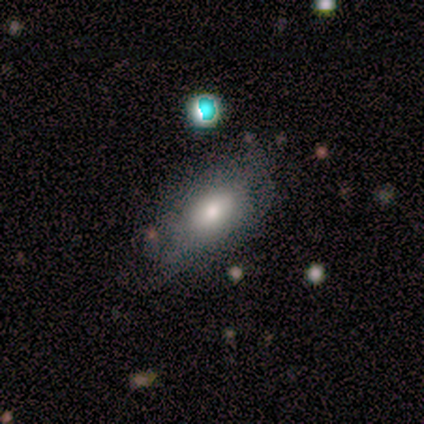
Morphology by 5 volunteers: Q: Smooth or featured?
A: smooth (80%); runner-up: star or artifact (20%)
Q: How rounded?
A: in between (100%)
Q: Merging?
A: none (75%); runner-up: minor disturbance (25%)